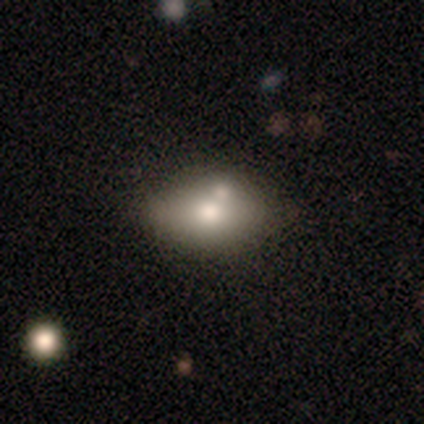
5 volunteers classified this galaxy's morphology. Smooth or featured? 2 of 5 (40%, tied with star or artifact) said smooth. How rounded? 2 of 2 (100%) said in between. Merging? 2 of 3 (67%) said merger.